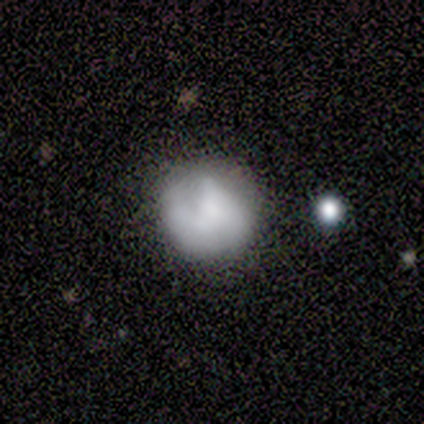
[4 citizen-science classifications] A smooth galaxy with no disk features (100%) that is round (75%).

Vote fractions:
- Smooth or featured? smooth: 100% / featured or disk: 0% / star or artifact: 0%
- How rounded? round: 75% / in between: 25% / cigar-shaped: 0%
- Merging? none: 50% (tied) / minor disturbance: 50% (tied) / major disturbance: 0% / merger: 0%